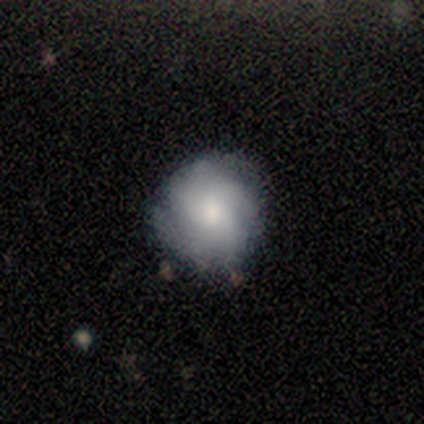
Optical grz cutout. It shows a featured or disk galaxy (60%) with a weak bar (67%), 3 (33%, tied with 4 and can't tell) medium (67%) spiral arms (100%) and a large central bulge (67%). Merging: none (80%).